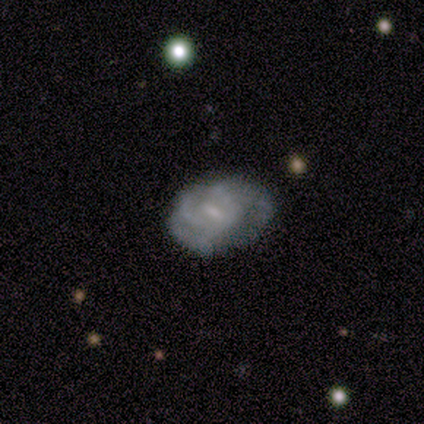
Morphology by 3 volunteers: Q: Smooth or featured?
A: featured or disk (67%); runner-up: star or artifact (33%)
Q: Edge-on disk?
A: no (100%)
Q: Bar?
A: weak (50%); tied with: no (50%)
Q: Spiral arms?
A: yes (100%)
Q: Spiral winding?
A: medium (100%)
Q: Spiral arm count?
A: 3 (50%); tied with: can't tell (50%)
Q: Bulge size?
A: small (100%)
Q: Merging?
A: none (100%)